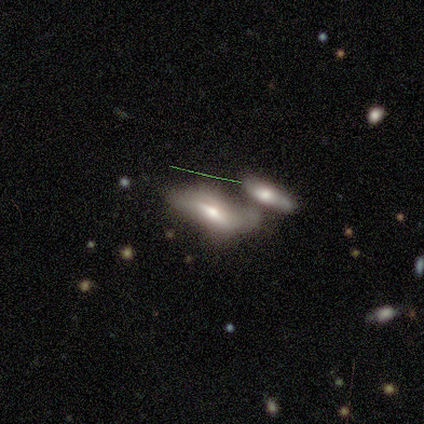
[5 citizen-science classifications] This is clearly a smooth galaxy (80%). How rounded: likely in between (75%). Merging: likely merger (60%).